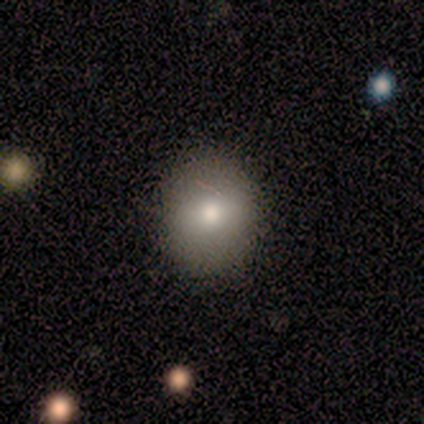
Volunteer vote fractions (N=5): Morphology: type=smooth (100%); roundness=round (60%); merging=none (100%).